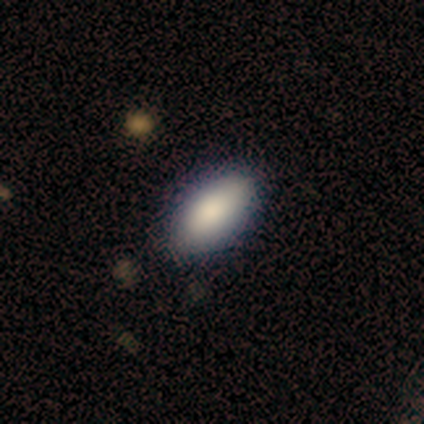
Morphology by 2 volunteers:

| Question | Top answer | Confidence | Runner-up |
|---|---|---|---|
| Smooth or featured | smooth | 100% | — |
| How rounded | round | 50% | tied: in between (50%) |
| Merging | none | 100% | — |